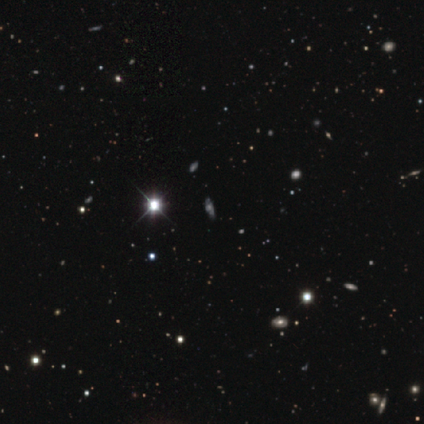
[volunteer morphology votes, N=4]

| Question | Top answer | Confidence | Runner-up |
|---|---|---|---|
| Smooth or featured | star or artifact | 75% | smooth (25%) |